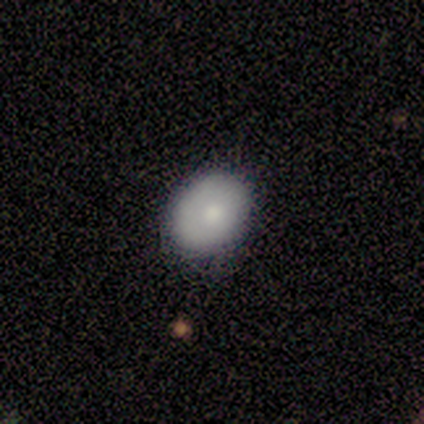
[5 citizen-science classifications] smooth_or_featured: smooth (p=0.60) [alt: featured or disk p=0.20]
how_rounded: round (p=0.67) [alt: in between p=0.33]
merging: none (p=0.50) [tied with: minor disturbance p=0.50]